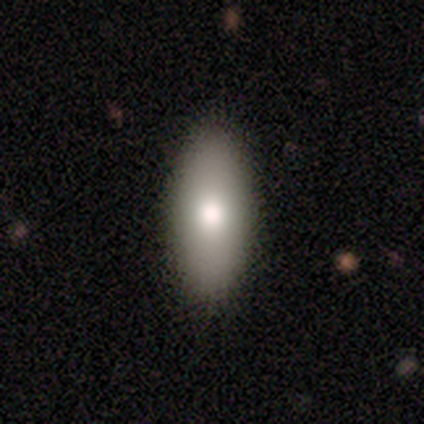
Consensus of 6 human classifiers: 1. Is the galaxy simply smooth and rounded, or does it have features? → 100% smooth, 0% featured or disk, 0% star or artifact.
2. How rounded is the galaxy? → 50% in between (tied), 50% cigar-shaped (tied), 0% round.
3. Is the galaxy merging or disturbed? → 83% none, 17% minor disturbance, 0% major disturbance, 0% merger.